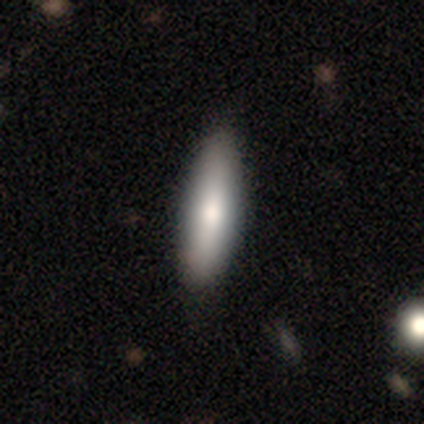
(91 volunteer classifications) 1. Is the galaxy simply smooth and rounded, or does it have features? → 82% smooth, 13% featured or disk, 4% star or artifact.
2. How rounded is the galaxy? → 67% cigar-shaped, 33% in between, 0% round.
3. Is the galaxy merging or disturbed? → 91% none, 8% minor disturbance, 1% major disturbance, 0% merger.